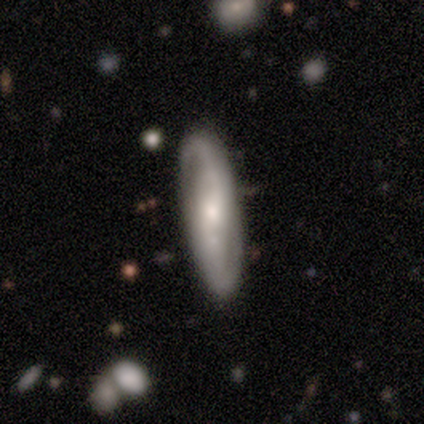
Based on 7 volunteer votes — featured or disk 86%, smooth 14%, star or artifact 0%. Down the decision tree: edge-on disk — no (100%); bar — no (83%); spiral arms — yes (100%); spiral arm count — 2 (100%); spiral winding — loose (50%); bulge size — moderate (83%); merging — none (86%).